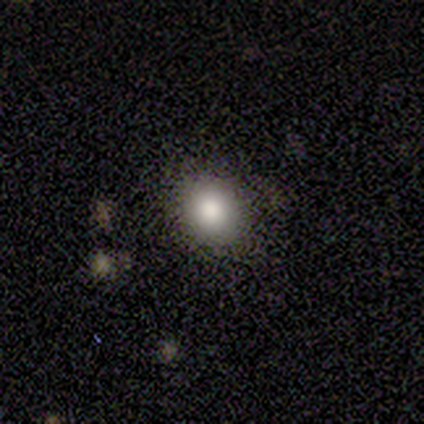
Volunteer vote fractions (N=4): This is possibly a smooth galaxy (50%, tied with star or artifact). How rounded: clearly round (100%). Merging: clearly none (100%).